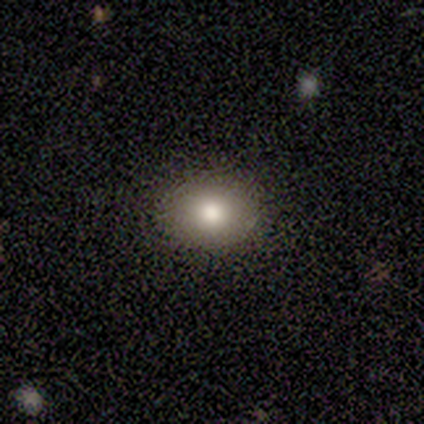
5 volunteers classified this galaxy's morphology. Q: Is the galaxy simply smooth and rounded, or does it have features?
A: smooth — 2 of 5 (40%, tied with featured or disk).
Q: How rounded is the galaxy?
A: in between — 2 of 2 (100%).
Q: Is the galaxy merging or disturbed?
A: none — 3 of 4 (75%).